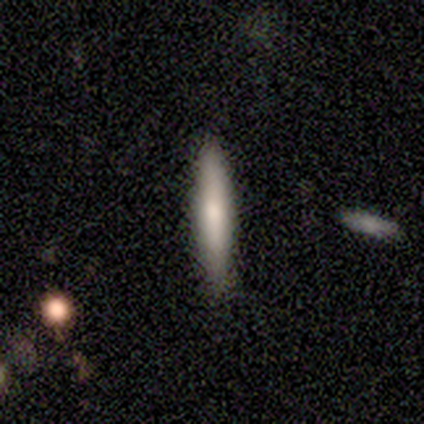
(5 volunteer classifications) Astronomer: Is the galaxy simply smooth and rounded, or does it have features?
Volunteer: smooth — 100%.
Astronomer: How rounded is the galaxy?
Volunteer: cigar-shaped — 100%.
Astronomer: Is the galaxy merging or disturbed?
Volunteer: none — 100%.